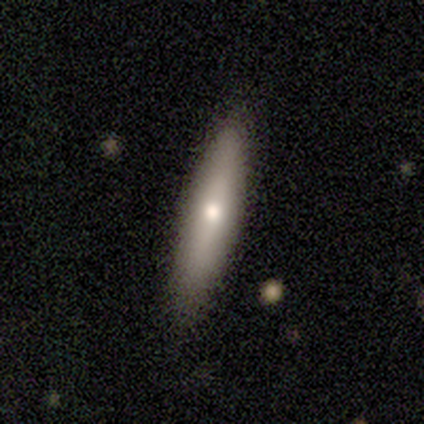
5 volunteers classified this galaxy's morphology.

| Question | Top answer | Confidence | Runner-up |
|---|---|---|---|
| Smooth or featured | smooth | 40% | tied: featured or disk (40%) |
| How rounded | cigar-shaped | 100% | — |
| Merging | none | 100% | — |